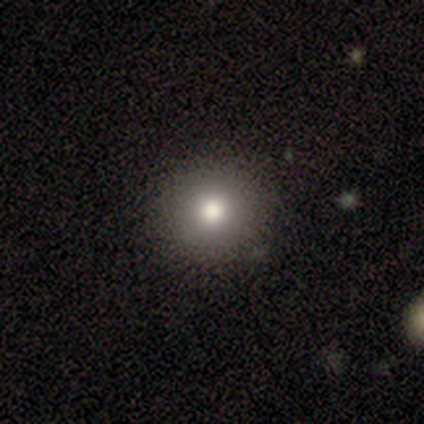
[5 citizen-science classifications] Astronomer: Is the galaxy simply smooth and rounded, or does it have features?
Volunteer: smooth — 100%.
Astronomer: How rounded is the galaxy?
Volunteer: round — 100%.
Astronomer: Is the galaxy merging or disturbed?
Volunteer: none — 100%.